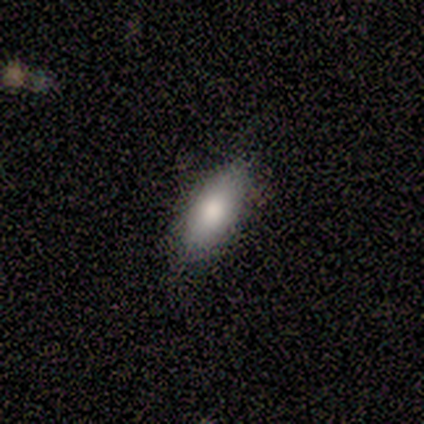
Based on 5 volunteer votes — Overall: smooth (60%; featured or disk 40%). How rounded: in between (67%; cigar-shaped 33%). Merging: none (80%).